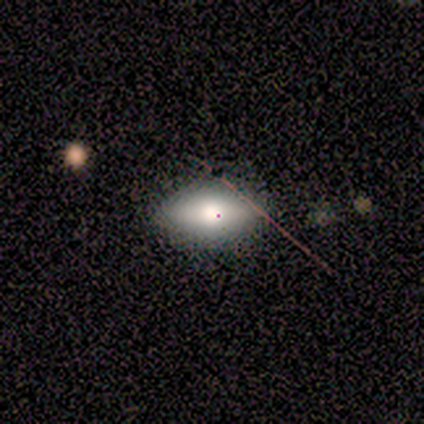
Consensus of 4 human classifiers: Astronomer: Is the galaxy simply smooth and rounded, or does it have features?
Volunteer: smooth — 50%, tied with featured or disk at 50%.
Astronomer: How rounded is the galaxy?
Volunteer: in between — 100%.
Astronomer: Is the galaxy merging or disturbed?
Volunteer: none — 50%.